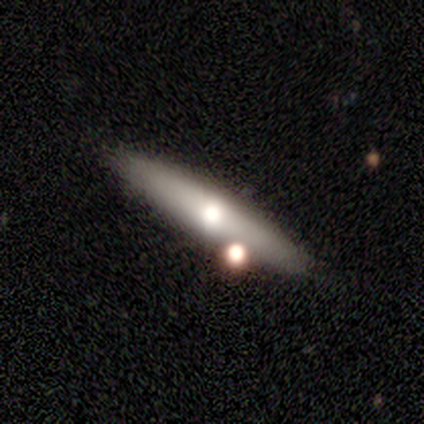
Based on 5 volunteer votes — A featured or disk galaxy (60%) viewed edge-on (67%) with a rounded central bulge (100%).

Vote fractions:
- Smooth or featured? featured or disk: 60% / smooth: 20% / star or artifact: 20%
- Edge-on disk? yes: 67% / no: 33%
- Edge-on bulge? rounded: 100% / boxy: 0% / none: 0%
- Merging? none: 50% / minor disturbance: 25% / merger: 25% / major disturbance: 0%